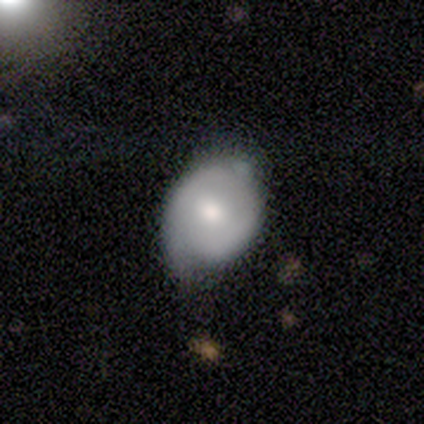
This appears to be a featured or disk galaxy (75%) with no bar (100%), no spiral arms (67%) and a moderate central bulge (100%). Merging: none (50%).